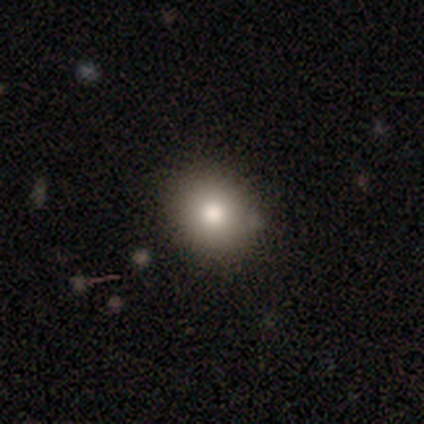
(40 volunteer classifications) Smooth or featured?
  - smooth: 78% *
  - star or artifact: 12%
  - featured or disk: 10%
How rounded?
  - round: 74% *
  - in between: 26%
  - cigar-shaped: 0%
Merging?
  - none: 86% *
  - minor disturbance: 14%
  - major disturbance: 0%
  - merger: 0%